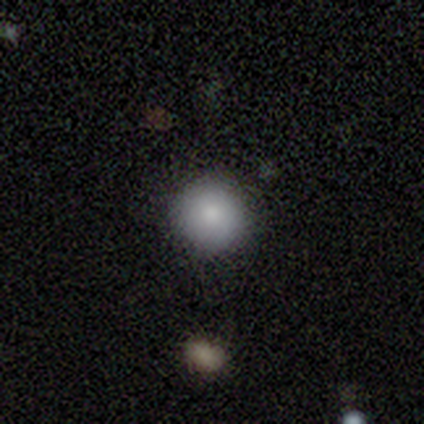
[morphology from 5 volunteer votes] This is clearly a smooth galaxy (100%). How rounded: clearly round (100%). Merging: clearly none (100%).